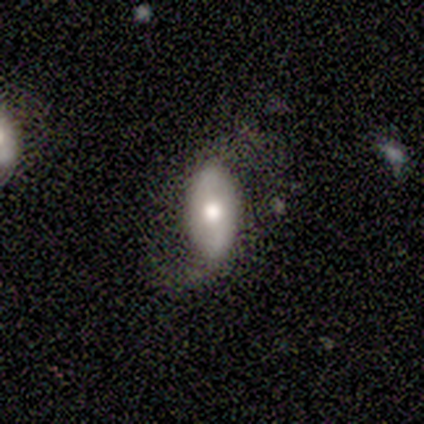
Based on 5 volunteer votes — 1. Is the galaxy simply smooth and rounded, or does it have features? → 60% smooth, 40% featured or disk, 0% star or artifact.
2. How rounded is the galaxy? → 100% in between, 0% round, 0% cigar-shaped.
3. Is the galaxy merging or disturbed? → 80% none, 20% merger, 0% minor disturbance, 0% major disturbance.